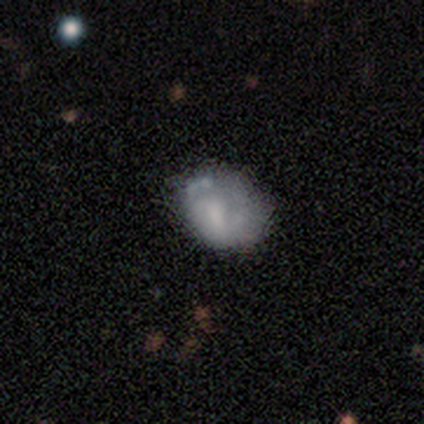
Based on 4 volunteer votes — A smooth galaxy with no disk features (50%) that is round (100%). Merging: none (67%).